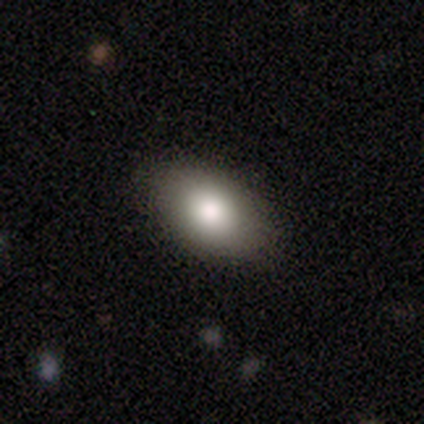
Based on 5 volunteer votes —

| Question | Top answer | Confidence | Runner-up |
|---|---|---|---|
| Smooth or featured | smooth | 100% | — |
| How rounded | in between | 80% | round (20%) |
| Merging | none | 100% | — |